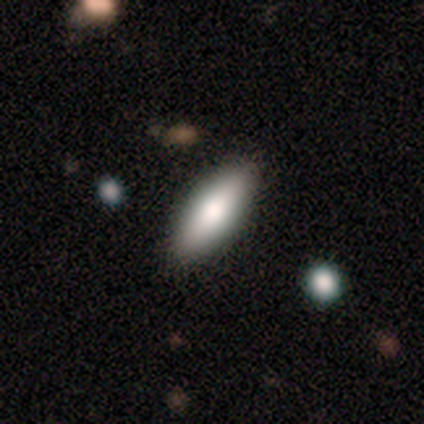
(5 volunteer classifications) Volunteers were most divided on "how rounded": cigar-shaped: 60%, in between: 40%, round: 0%. More confident: smooth or featured — smooth (100%); merging — none (80%).